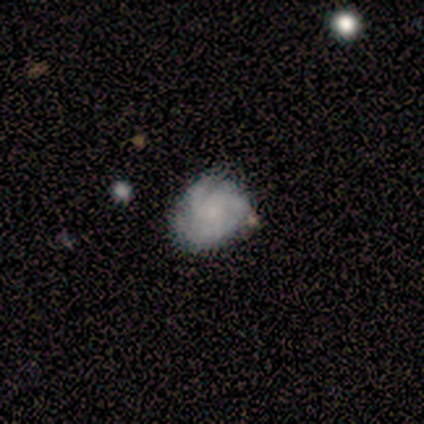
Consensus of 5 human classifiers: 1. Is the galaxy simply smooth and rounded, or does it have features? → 60% featured or disk, 40% smooth, 0% star or artifact.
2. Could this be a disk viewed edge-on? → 100% no, 0% yes.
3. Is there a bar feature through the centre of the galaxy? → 100% no, 0% strong, 0% weak.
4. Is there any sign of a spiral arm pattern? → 100% yes, 0% no.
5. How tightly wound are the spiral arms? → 67% tight, 33% medium, 0% loose.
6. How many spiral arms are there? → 67% 3, 33% can't tell, 0% 1, 0% 2, 0% 4, 0% more than 4.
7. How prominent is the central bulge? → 67% small, 33% none, 0% dominant, 0% large, 0% moderate.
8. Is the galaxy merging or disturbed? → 80% none, 20% minor disturbance, 0% major disturbance, 0% merger.